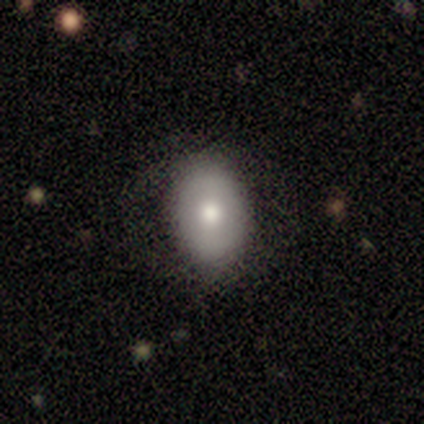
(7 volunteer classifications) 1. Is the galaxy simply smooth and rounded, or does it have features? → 57% smooth, 43% featured or disk, 0% star or artifact.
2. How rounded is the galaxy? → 50% round (tied), 50% in between (tied), 0% cigar-shaped.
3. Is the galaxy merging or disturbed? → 71% none, 14% minor disturbance, 14% major disturbance, 0% merger.